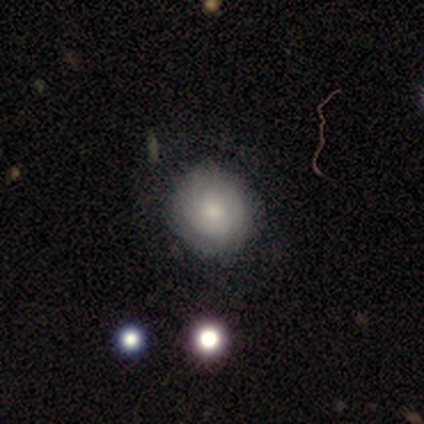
Q: Smooth or featured?
A: smooth (100%)
Q: How rounded?
A: round (80%); runner-up: in between (20%)
Q: Merging?
A: none (80%); runner-up: minor disturbance (20%)